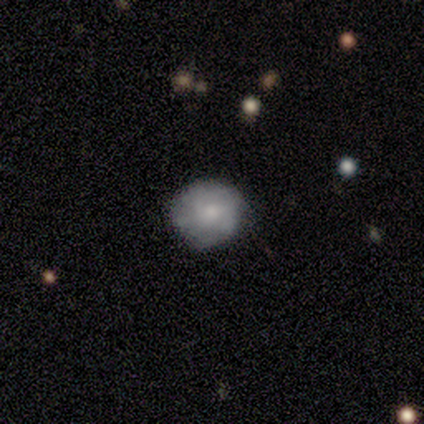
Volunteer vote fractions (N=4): Q: Smooth or featured?
A: smooth (100%)
Q: How rounded?
A: round (75%); runner-up: in between (25%)
Q: Merging?
A: none (75%); runner-up: minor disturbance (25%)